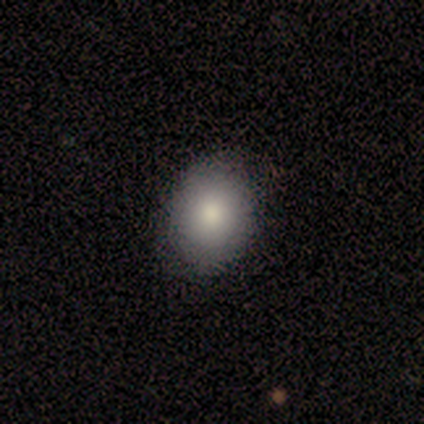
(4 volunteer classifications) Smooth or featured: smooth — 50% (featured or disk — 25%)
How rounded: round — 50% (tied with in between — 50%)
Merging: minor disturbance — 67% (none — 33%)